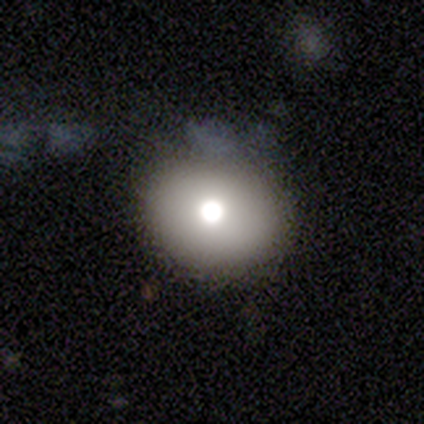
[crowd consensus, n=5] smooth_or_featured: featured or disk (p=0.60) [alt: smooth p=0.40]
disk_edge_on: no (p=1.00)
bar: no (p=1.00)
has_spiral_arms: no (p=1.00)
bulge_size: moderate (p=0.67) [alt: large p=0.33]
merging: none (p=1.00)